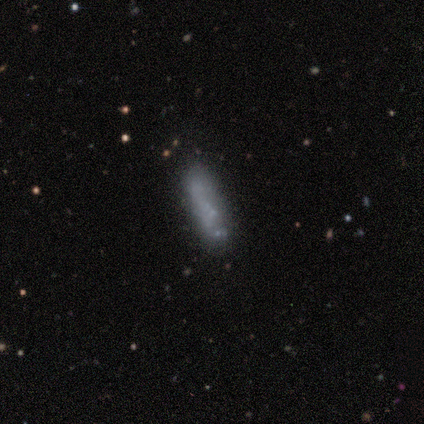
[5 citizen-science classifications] Volunteers were most divided on "how rounded": cigar-shaped: 80%, in between: 20%, round: 0%. More confident: smooth or featured — smooth (100%); merging — none (100%).